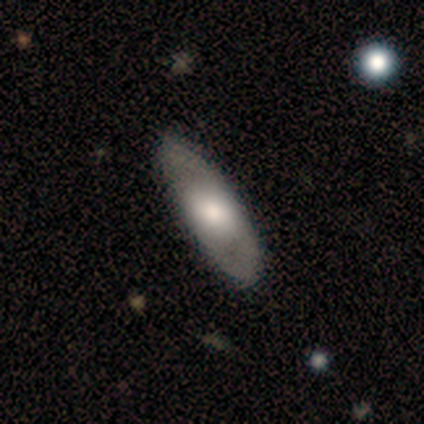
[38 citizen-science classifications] smooth_or_featured: smooth (p=0.53) [alt: featured or disk p=0.47]
how_rounded: in between (p=0.60) [alt: cigar-shaped p=0.40]
merging: none (p=0.47) [alt: minor disturbance p=0.11]